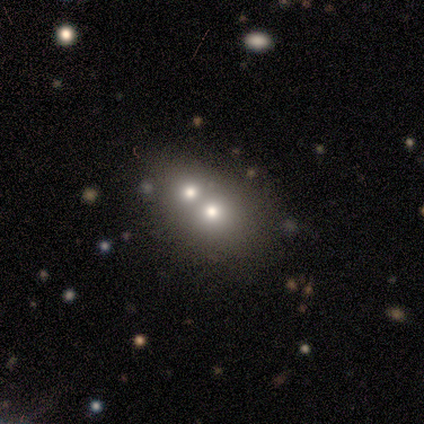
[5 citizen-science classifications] smooth 40% (tied), star or artifact 40% (tied), featured or disk 20%. Down the decision tree: how rounded — round (50%, tied with in between); merging — merger (100%).